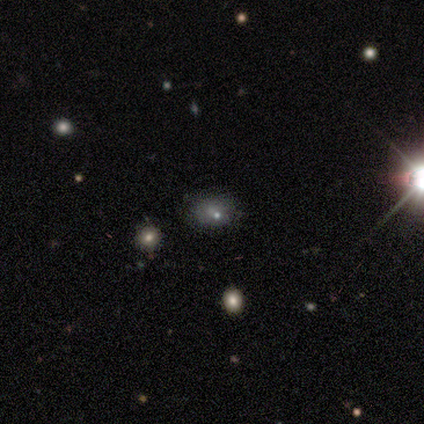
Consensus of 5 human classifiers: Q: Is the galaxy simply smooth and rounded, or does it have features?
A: smooth — 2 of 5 (40%, tied with star or artifact).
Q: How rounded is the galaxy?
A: round — 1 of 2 (50%, tied with in between).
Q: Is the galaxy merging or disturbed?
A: none — 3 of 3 (100%).